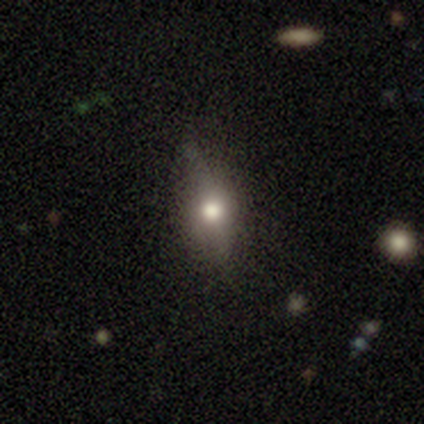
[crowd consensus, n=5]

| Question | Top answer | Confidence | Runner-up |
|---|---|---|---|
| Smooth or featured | smooth | 60% | featured or disk (40%) |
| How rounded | in between | 67% | round (33%) |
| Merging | none | 100% | — |